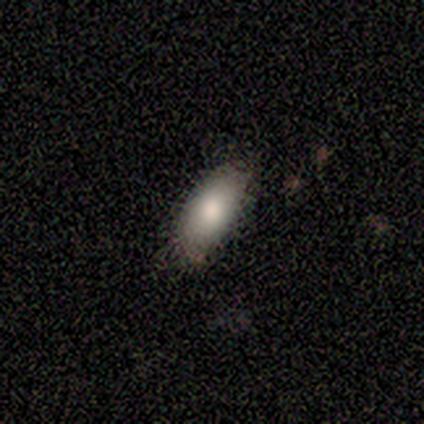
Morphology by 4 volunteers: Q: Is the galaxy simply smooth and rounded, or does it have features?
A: smooth — 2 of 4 (50%).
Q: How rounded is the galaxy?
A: in between — 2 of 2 (100%).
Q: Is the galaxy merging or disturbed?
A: none — 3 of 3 (100%).